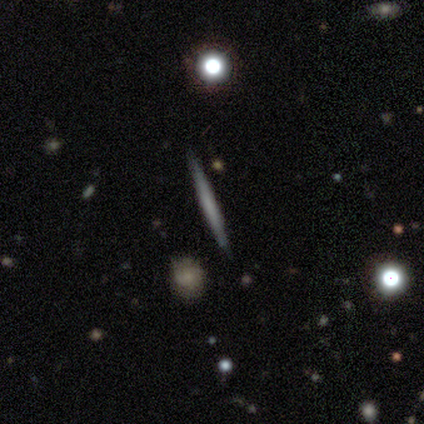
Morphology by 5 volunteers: smooth_or_featured: smooth (p=0.80) [alt: featured or disk p=0.20]
how_rounded: cigar-shaped (p=1.00)
merging: none (p=1.00)